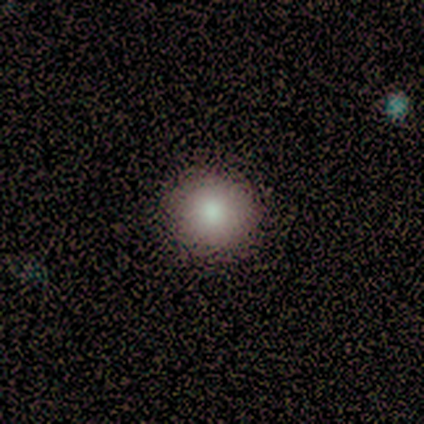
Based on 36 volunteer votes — Q: Smooth or featured?
A: smooth (83%); runner-up: featured or disk (8%)
Q: How rounded?
A: round (93%); runner-up: in between (3%)
Q: Merging?
A: none (97%); runner-up: minor disturbance (3%)